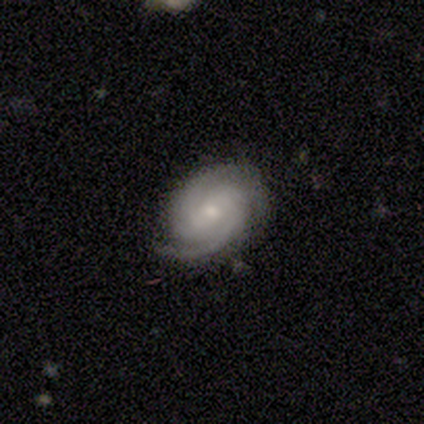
Q: Smooth or featured?
A: featured or disk (80%); runner-up: smooth (20%)
Q: Edge-on disk?
A: no (100%)
Q: Bar?
A: weak (50%); runner-up: strong (25%)
Q: Spiral arms?
A: yes (100%)
Q: Spiral winding?
A: medium (75%); runner-up: tight (25%)
Q: Spiral arm count?
A: 2 (50%); runner-up: 1 (25%)
Q: Bulge size?
A: small (75%); runner-up: moderate (25%)
Q: Merging?
A: none (60%); runner-up: minor disturbance (40%)